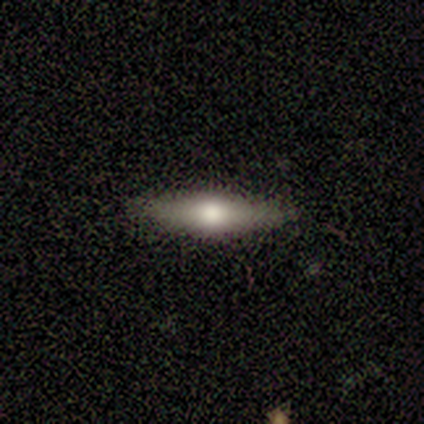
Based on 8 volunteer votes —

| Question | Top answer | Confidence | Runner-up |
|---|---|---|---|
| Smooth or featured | smooth | 75% | featured or disk (25%) |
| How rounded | cigar-shaped | 67% | in between (33%) |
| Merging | none | 88% | minor disturbance (12%) |